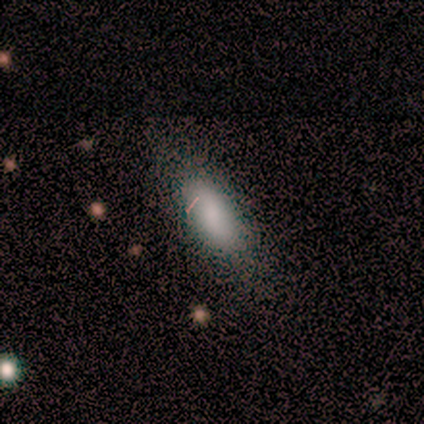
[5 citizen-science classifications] A smooth galaxy with no disk features (80%) that is in between round and cigar-shaped (100%).

Vote fractions:
- Smooth or featured? smooth: 80% / featured or disk: 20% / star or artifact: 0%
- How rounded? in between: 100% / round: 0% / cigar-shaped: 0%
- Merging? none: 80% / minor disturbance: 20% / major disturbance: 0% / merger: 0%